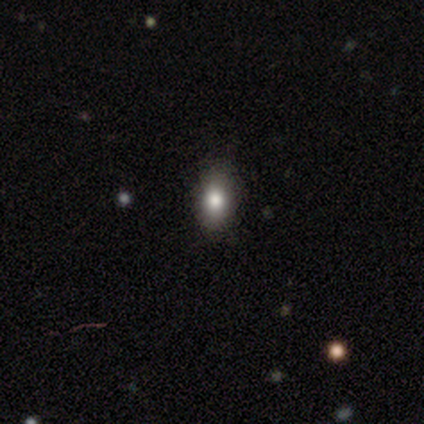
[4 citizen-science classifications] Q: Smooth or featured?
A: smooth (100%)
Q: How rounded?
A: in between (75%); runner-up: round (25%)
Q: Merging?
A: none (100%)